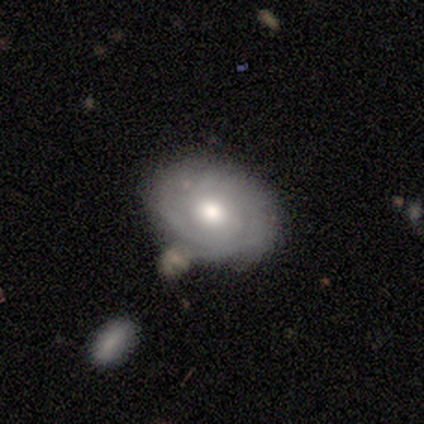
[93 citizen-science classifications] smooth-or-featured: featured or disk: 66% | smooth: 31% | star or artifact: 3%
  disk-edge-on: no: 97% | yes: 3%
    bar: no: 75% | weak: 24% | strong: 2%
    has-spiral-arms: yes: 78% | no: 22%
      spiral-winding: tight: 76% | medium: 13% | loose: 11%
      spiral-arm-count: can't tell: 43% | 2: 35% | 3: 13% | 4: 7% | more than 4: 2% | 1: 0%
    bulge-size: moderate: 75% | small: 14% | large: 10% | none: 2% | dominant: 0%
  merging: none: 72% | minor disturbance: 17% | merger: 8% | major disturbance: 3%